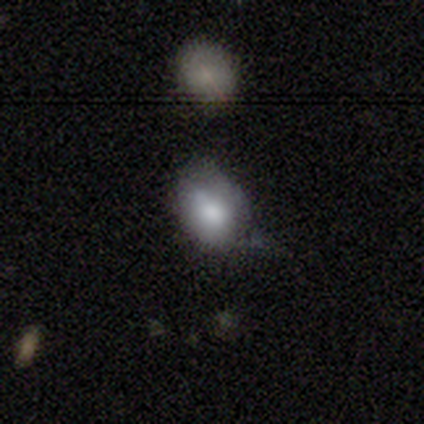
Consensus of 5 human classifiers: smooth-or-featured: smooth: 80% | featured or disk: 20% | star or artifact: 0%
  how-rounded: in between: 75% | round: 25% | cigar-shaped: 0%
  merging: none: 40% (tied) | major disturbance: 40% (tied) | minor disturbance: 20% | merger: 0%